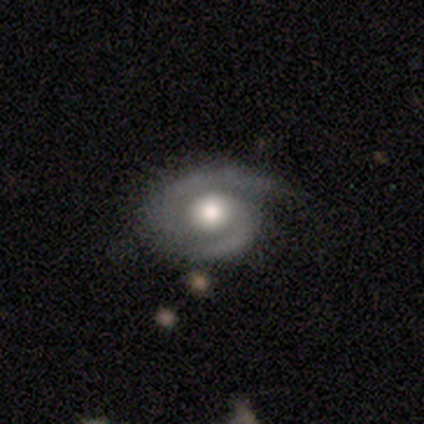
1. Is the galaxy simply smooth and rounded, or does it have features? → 89% featured or disk, 5% smooth, 5% star or artifact.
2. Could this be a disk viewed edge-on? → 100% no, 0% yes.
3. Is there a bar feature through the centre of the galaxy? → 79% no, 12% weak, 9% strong.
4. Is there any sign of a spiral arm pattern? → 97% yes, 3% no.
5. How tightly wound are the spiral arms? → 52% tight, 48% medium, 0% loose.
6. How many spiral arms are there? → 91% 2, 9% 1, 0% 3, 0% 4, 0% more than 4, 0% can't tell.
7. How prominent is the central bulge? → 47% moderate, 41% large, 9% dominant, 3% small, 0% none.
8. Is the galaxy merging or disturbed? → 58% none, 31% minor disturbance, 8% major disturbance, 3% merger.